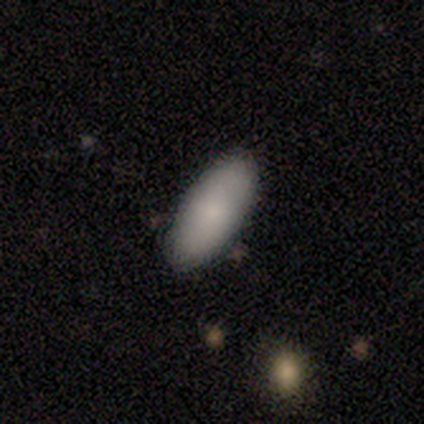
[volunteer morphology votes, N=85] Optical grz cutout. It shows a smooth galaxy with no disk features (84%) that is in between round and cigar-shaped (89%). Merging: none (83%).